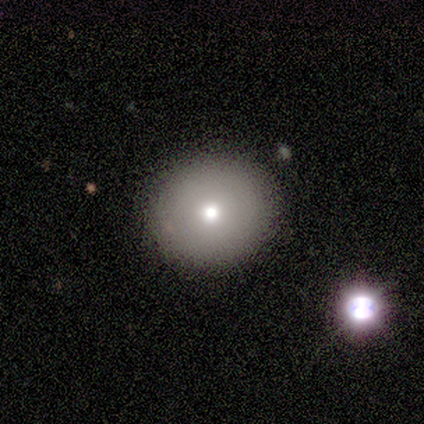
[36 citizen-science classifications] Smooth or featured? 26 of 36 (72%) said smooth. How rounded? 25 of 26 (96%) said round. Merging? 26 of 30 (87%) said none.